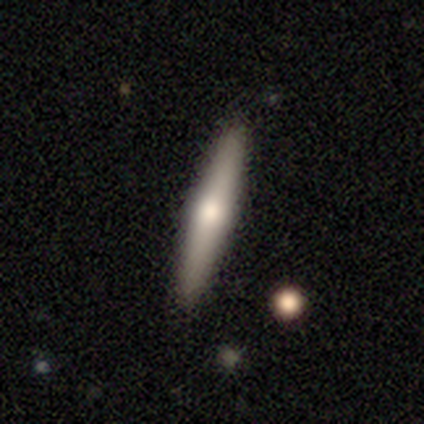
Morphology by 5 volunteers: A smooth galaxy with no disk features (60%) that is cigar-shaped (100%). Merging: none (100%).